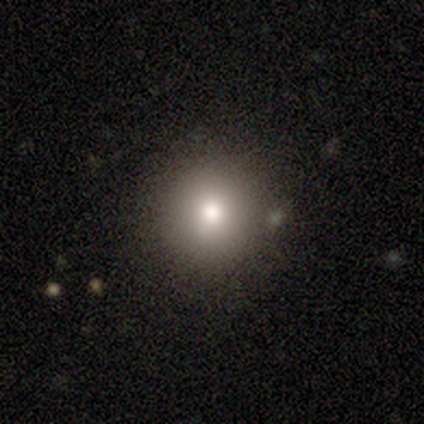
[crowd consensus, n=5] This appears to be a smooth galaxy with no disk features (60%) that is round (67%). Merging: merger (50%).